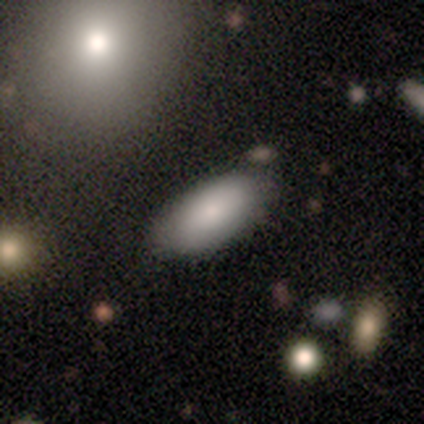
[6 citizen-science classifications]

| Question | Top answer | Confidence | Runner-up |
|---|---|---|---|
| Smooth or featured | smooth | 83% | featured or disk (17%) |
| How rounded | in between | 100% | — |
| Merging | none | 67% | minor disturbance (33%) |